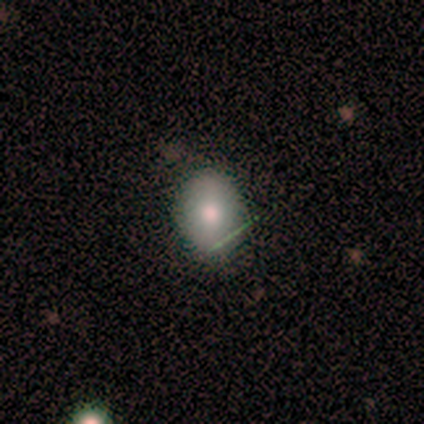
Smooth or featured?
  - smooth: 100% *
  - featured or disk: 0%
  - star or artifact: 0%
How rounded?
  - round: 40% * (tied)
  - in between: 40% * (tied)
  - cigar-shaped: 20%
Merging?
  - none: 60% *
  - minor disturbance: 20%
  - major disturbance: 20%
  - merger: 0%